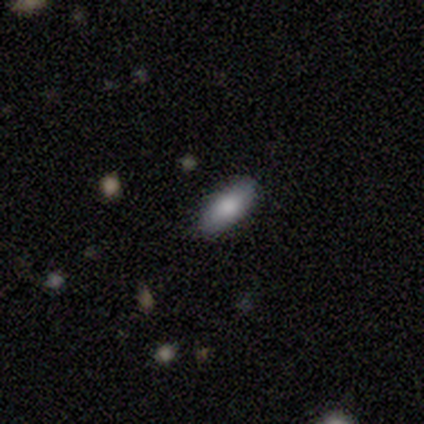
This appears to be a smooth galaxy with no disk features (60%) that is cigar-shaped (67%). Merging: none (100%).